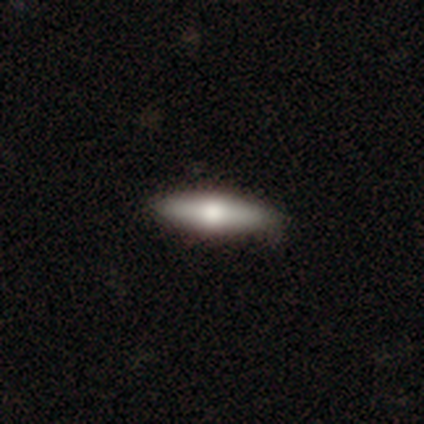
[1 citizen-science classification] Smooth or featured? featured or disk (100%)
Edge-on disk? yes (100%)
Edge-on bulge? rounded (100%)
Merging? none (100%)